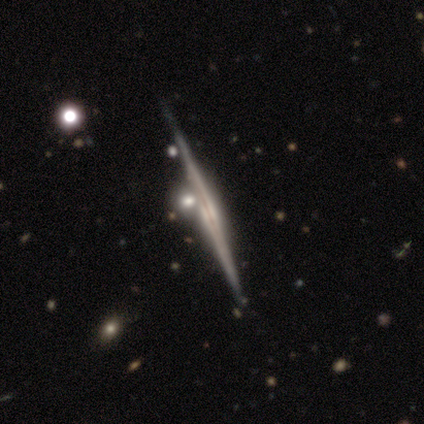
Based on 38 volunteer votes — smooth_or_featured: featured or disk (p=0.89) [alt: smooth p=0.08]
disk_edge_on: yes (p=1.00)
edge_on_bulge: none (p=0.47) [alt: rounded p=0.38]
merging: none (p=0.73) [alt: merger p=0.14]